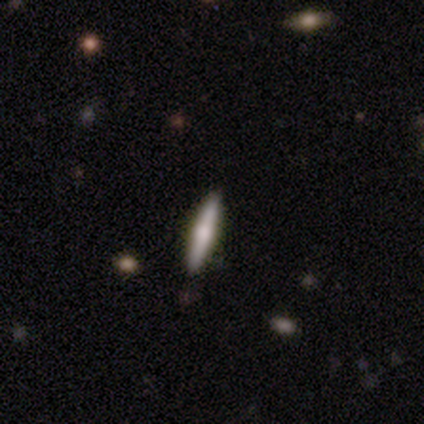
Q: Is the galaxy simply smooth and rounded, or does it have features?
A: smooth — 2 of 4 (50%, tied with featured or disk).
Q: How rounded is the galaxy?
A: cigar-shaped — 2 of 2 (100%).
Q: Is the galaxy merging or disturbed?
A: none — 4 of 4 (100%).